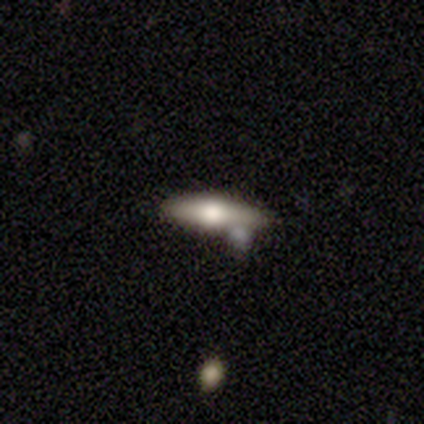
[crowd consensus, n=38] Volunteers were most divided on "smooth or featured": featured or disk: 61%, smooth: 34%, star or artifact: 5%. More confident: edge-on bulge — rounded (100%); edge-on disk — yes (87%); merging — none (64%).